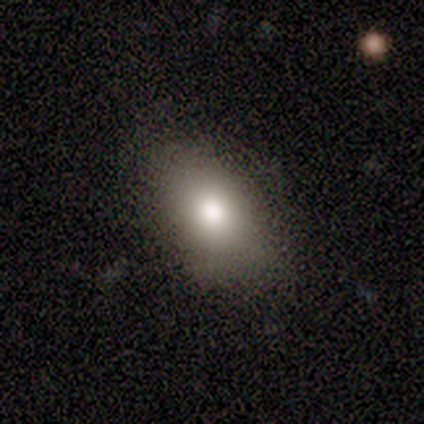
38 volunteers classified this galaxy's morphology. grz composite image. It shows a smooth galaxy with no disk features (76%) that is in between round and cigar-shaped (86%). Merging: none (79%).